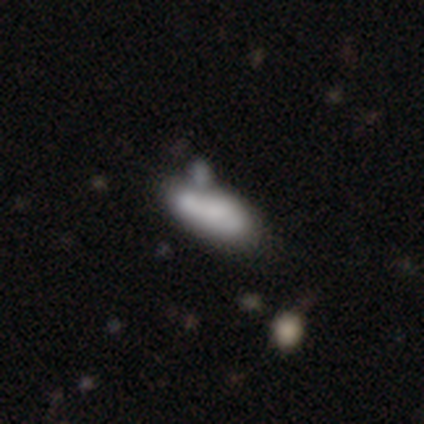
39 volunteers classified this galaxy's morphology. Q: Smooth or featured?
A: smooth (77%); runner-up: featured or disk (23%)
Q: How rounded?
A: in between (80%); runner-up: cigar-shaped (20%)
Q: Merging?
A: merger (46%); runner-up: minor disturbance (26%)